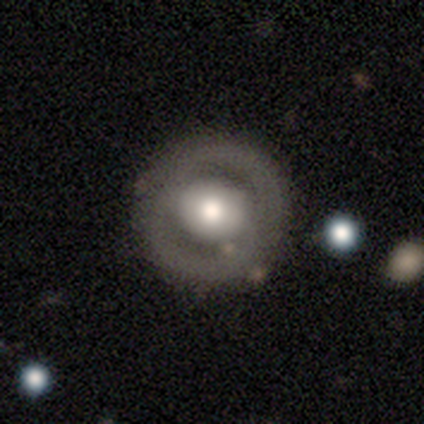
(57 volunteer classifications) featured or disk 68%, smooth 23%, star or artifact 9%. Down the decision tree: edge-on disk — no (100%); bar — no (74%); spiral arms — no (74%); bulge size — moderate (62%); merging — none (79%).